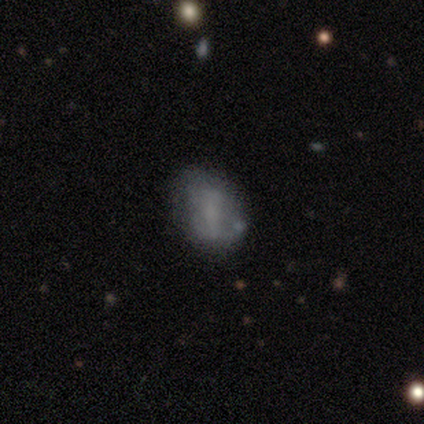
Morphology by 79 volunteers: Smooth or featured? smooth (48%)
How rounded? in between (82%)
Merging? none (39%)